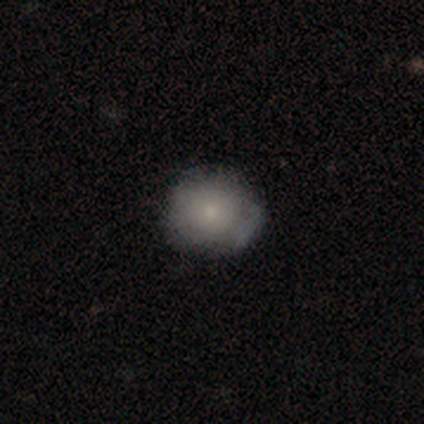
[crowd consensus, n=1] Morphology: type=featured or disk (100%); edge-on=no (100%); bar=weak (100%); spiral arms=no (100%); bulge=small (100%); merging=none (100%).